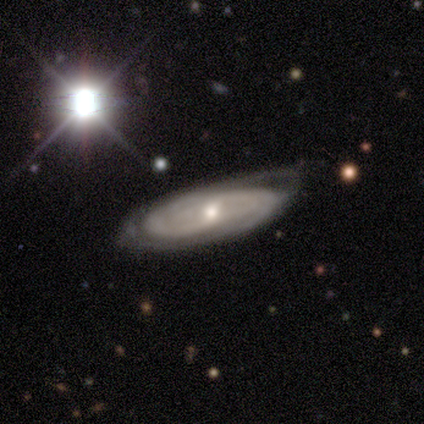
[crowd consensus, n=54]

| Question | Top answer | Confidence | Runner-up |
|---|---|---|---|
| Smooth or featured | featured or disk | 80% | smooth (11%) |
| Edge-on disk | no | 91% | yes (9%) |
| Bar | no | 51% | weak (41%) |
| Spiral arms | yes | 85% | no (15%) |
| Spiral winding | tight | 64% | medium (30%) |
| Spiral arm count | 2 | 42% | can't tell (33%) |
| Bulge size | moderate | 54% | small (46%) |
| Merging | none | 51% | minor disturbance (39%) |